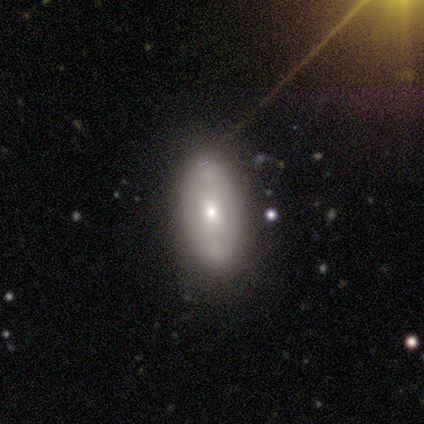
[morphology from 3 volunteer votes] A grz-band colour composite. It shows a smooth galaxy with no disk features (100%) that is in between round and cigar-shaped (100%). Merging: none (100%).